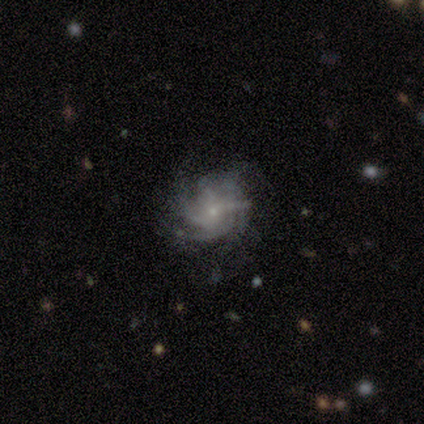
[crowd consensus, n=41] smooth-or-featured: featured or disk: 85% | smooth: 10% | star or artifact: 5%
  disk-edge-on: no: 100% | yes: 0%
    bar: no: 77% | weak: 20% | strong: 3%
    has-spiral-arms: yes: 94% | no: 6%
      spiral-winding: tight: 58% | medium: 39% | loose: 3%
      spiral-arm-count: 4: 33% | can't tell: 27% | 3: 24% | more than 4: 15% | 1: 0% | 2: 0%
    bulge-size: small: 97% | moderate: 3% | dominant: 0% | large: 0% | none: 0%
  merging: none: 74% | minor disturbance: 13% | major disturbance: 10% | merger: 3%